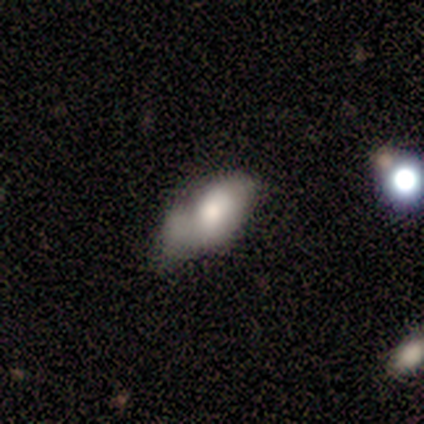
Smooth or featured? 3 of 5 (60%) said smooth. How rounded? 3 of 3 (100%) said in between. Merging? 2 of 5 (40%) said minor disturbance.